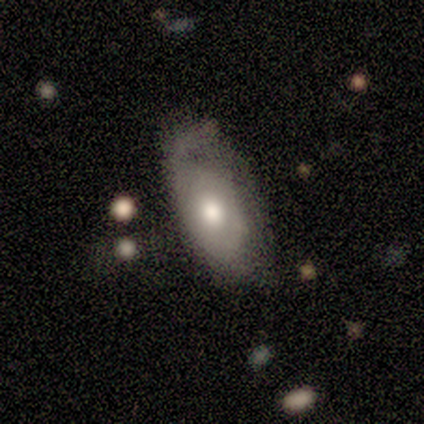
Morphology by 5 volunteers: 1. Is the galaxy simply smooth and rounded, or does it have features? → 60% smooth, 40% featured or disk, 0% star or artifact.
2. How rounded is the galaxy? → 100% in between, 0% round, 0% cigar-shaped.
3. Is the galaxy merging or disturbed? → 40% none (tied), 40% minor disturbance (tied), 20% major disturbance, 0% merger.